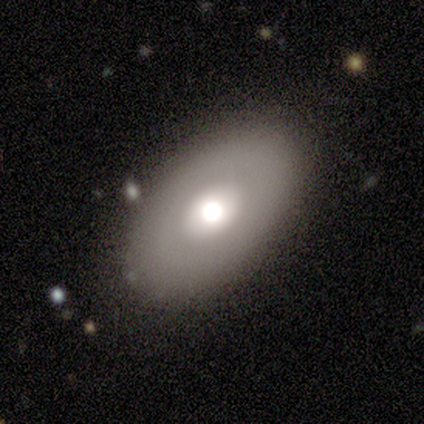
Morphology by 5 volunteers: Volunteers were most divided on "smooth or featured": smooth: 60%, featured or disk: 40%, star or artifact: 0%. More confident: how rounded — in between (100%); merging — none (100%).